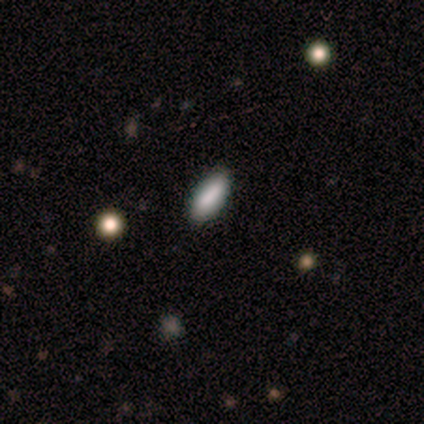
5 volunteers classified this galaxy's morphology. A smooth galaxy with no disk features (100%) that is in between round and cigar-shaped (100%). Merging: none (80%).